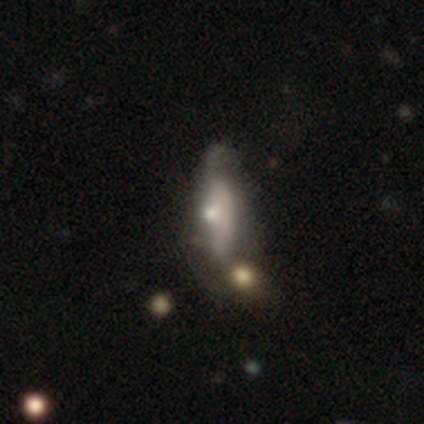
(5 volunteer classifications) Q: Smooth or featured?
A: smooth (80%); runner-up: featured or disk (20%)
Q: How rounded?
A: in between (75%); runner-up: cigar-shaped (25%)
Q: Merging?
A: major disturbance (60%); runner-up: none (20%)